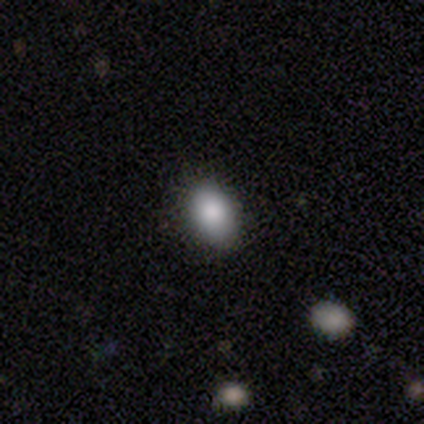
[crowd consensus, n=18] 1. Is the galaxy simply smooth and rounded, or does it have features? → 83% smooth, 17% featured or disk, 0% star or artifact.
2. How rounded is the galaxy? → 80% in between, 20% round, 0% cigar-shaped.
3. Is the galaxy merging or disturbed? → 72% none, 22% minor disturbance, 6% major disturbance, 0% merger.